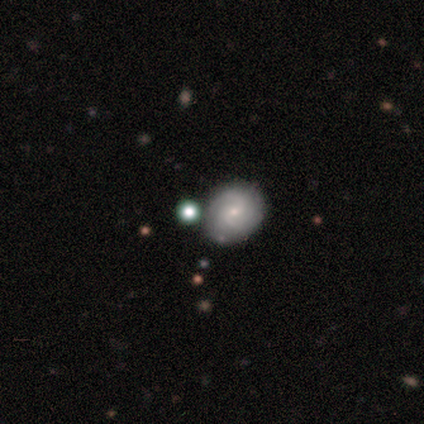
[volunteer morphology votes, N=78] smooth_or_featured: featured or disk (p=0.62) [alt: smooth p=0.27]
disk_edge_on: no (p=0.98) [alt: yes p=0.02]
bar: weak (p=0.51) [alt: no p=0.49]
has_spiral_arms: yes (p=0.98) [alt: no p=0.02]
spiral_winding: medium (p=0.48) [alt: tight p=0.41]
spiral_arm_count: 2 (p=0.52) [alt: can't tell p=0.37]
bulge_size: small (p=0.81) [alt: moderate p=0.17]
merging: none (p=0.39) [alt: merger p=0.16]